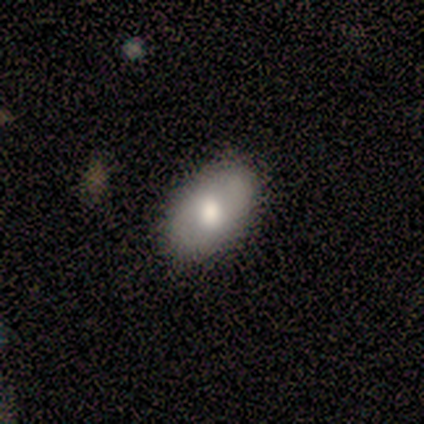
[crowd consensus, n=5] Smooth or featured: smooth — 80% (featured or disk — 20%)
How rounded: in between — 100%
Merging: none — 100%